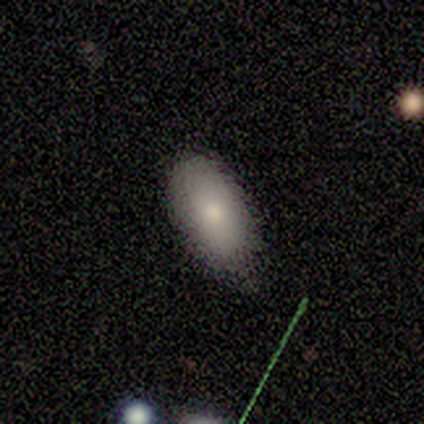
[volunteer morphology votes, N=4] smooth_or_featured: smooth (p=0.75) [alt: star or artifact p=0.25]
how_rounded: in between (p=1.00)
merging: none (p=1.00)